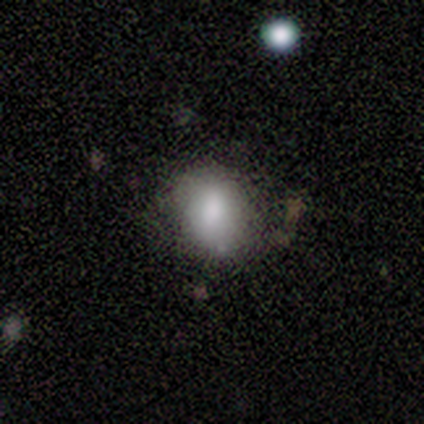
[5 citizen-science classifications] Volunteers were most divided on "merging": none: 60%, minor disturbance: 40%, major disturbance: 0%, merger: 0%. More confident: smooth or featured — smooth (80%); how rounded — round (75%).